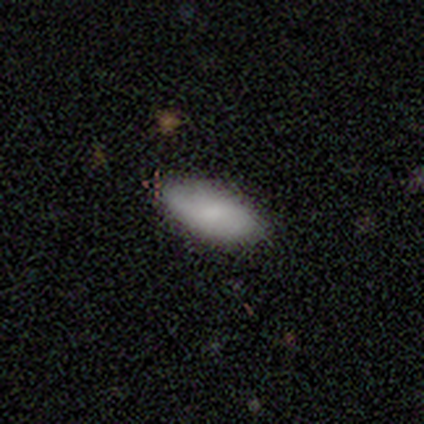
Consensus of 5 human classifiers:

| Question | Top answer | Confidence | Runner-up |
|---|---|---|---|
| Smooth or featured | featured or disk | 60% | smooth (40%) |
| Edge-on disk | no | 100% | — |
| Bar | weak | 67% | no (33%) |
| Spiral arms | yes | 100% | — |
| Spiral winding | medium | 67% | loose (33%) |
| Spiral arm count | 2 | 100% | — |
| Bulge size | moderate | 67% | small (33%) |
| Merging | none | 80% | merger (20%) |